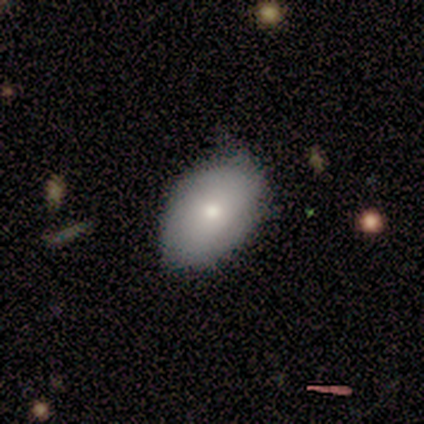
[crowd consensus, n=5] Smooth or featured? smooth (80%)
How rounded? in between (75%)
Merging? none (80%)